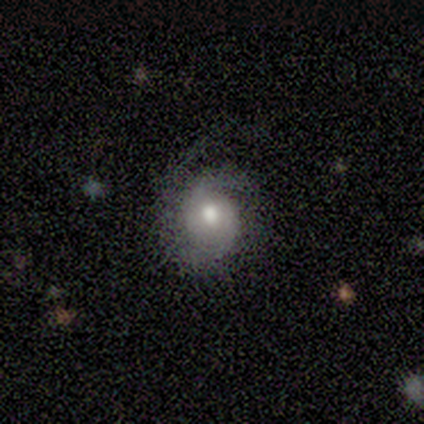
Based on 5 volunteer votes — Smooth or featured? smooth (40%, tied with star or artifact)
How rounded? round (100%)
Merging? none (67%)